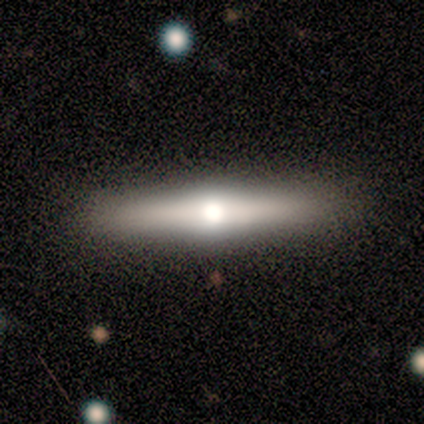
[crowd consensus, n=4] Smooth or featured: featured or disk — 75% (star or artifact — 25%)
Edge-on disk: yes — 100%
Edge-on bulge: rounded — 100%
Merging: none — 67% (merger — 33%)